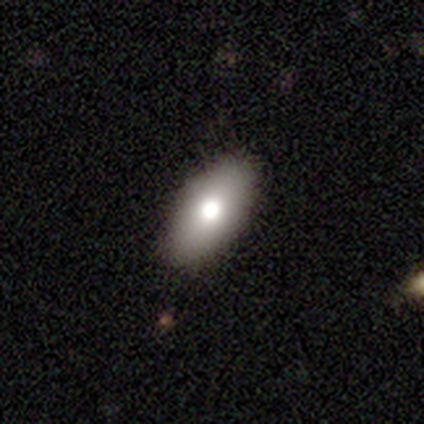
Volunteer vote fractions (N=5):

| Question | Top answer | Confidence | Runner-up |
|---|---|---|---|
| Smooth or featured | smooth | 80% | featured or disk (20%) |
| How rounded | in between | 75% | round (25%) |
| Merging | none | 100% | — |